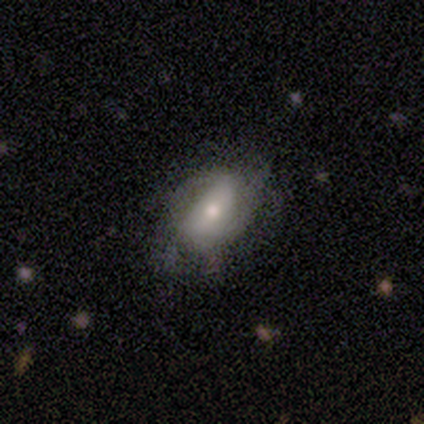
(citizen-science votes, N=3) This appears to be a smooth galaxy with no disk features (33%, tied with featured or disk and star or artifact) that is in between round and cigar-shaped (100%). Merging: minor disturbance (100%).